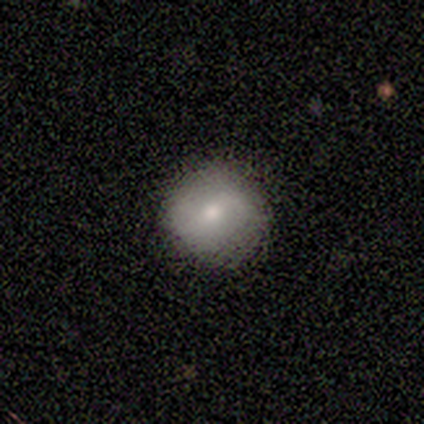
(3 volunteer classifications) smooth-or-featured: star or artifact: 67% | smooth: 33% | featured or disk: 0%